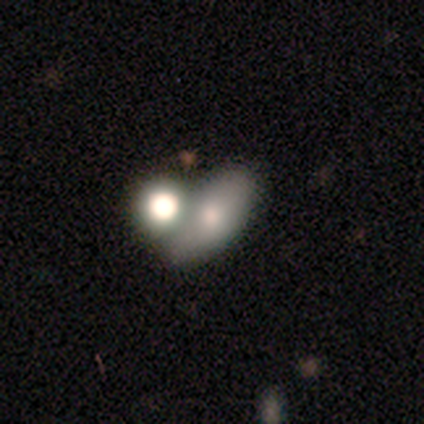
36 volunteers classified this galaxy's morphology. A smooth galaxy with no disk features (64%) that is in between round and cigar-shaped (91%).

Vote fractions:
- Smooth or featured? smooth: 64% / featured or disk: 31% / star or artifact: 6%
- How rounded? in between: 91% / round: 4% / cigar-shaped: 4%
- Merging? none: 53% / merger: 35% / minor disturbance: 12% / major disturbance: 0%